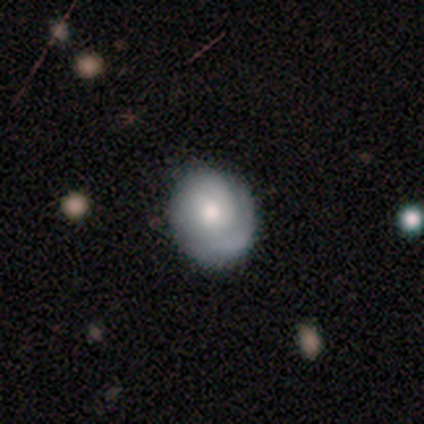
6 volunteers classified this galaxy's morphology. This is likely a featured or disk galaxy (67%). It is clearly not viewed edge-on (100%). Bar: likely no (75%). Spiral arm pattern: clearly yes (100%). Spiral arm count: likely 1 (75%). Spiral winding: possibly tight (50%). Central bulge: possibly moderate (50%). Merging: likely none (67%).